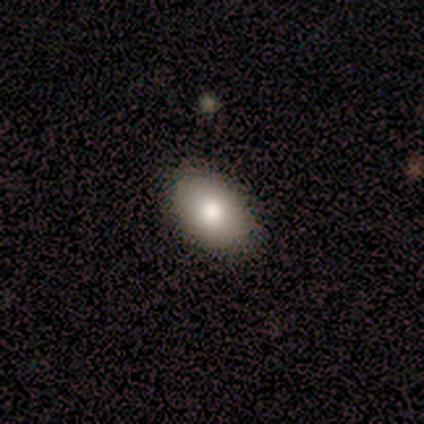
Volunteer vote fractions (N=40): Morphology: type=smooth (82%); roundness=in between (94%); merging=none (86%).